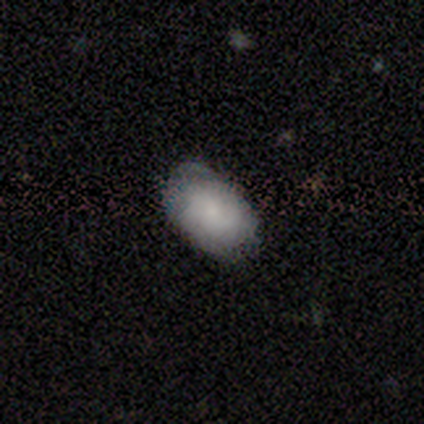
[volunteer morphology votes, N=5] Smooth or featured: smooth — 80% (featured or disk — 20%)
How rounded: in between — 100%
Merging: minor disturbance — 60% (none — 40%)